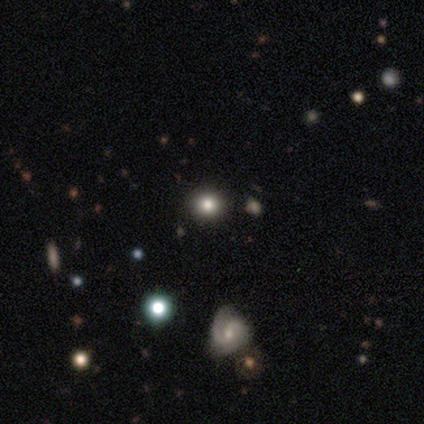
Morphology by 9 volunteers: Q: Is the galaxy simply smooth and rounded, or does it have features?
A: smooth — 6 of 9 (67%).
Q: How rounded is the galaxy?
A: round — 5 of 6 (83%).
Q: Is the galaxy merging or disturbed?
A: none — 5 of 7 (71%).